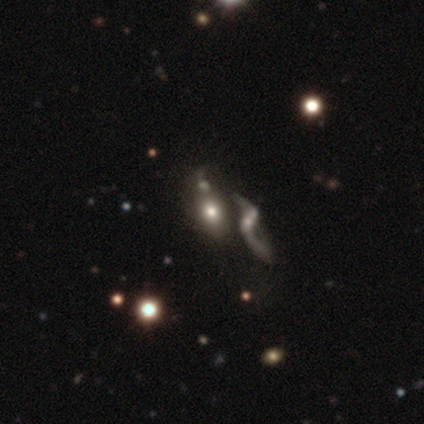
Overall: smooth (65%; featured or disk 27%). How rounded: in between (79%). Merging: merger (29%; none 24%).